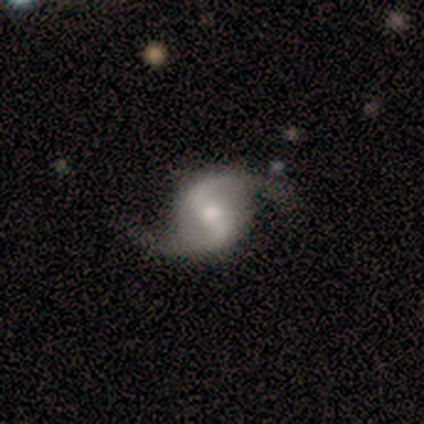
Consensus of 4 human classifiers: smooth-or-featured: featured or disk: 100% | smooth: 0% | star or artifact: 0%
  disk-edge-on: no: 100% | yes: 0%
    bar: weak: 50% | strong: 25% | no: 25%
    has-spiral-arms: yes: 100% | no: 0%
      spiral-winding: loose: 50% | tight: 25% | medium: 25%
      spiral-arm-count: 2: 100% | 1: 0% | 3: 0% | 4: 0% | more than 4: 0% | can't tell: 0%
    bulge-size: moderate: 75% | small: 25% | dominant: 0% | large: 0% | none: 0%
  merging: none: 100% | minor disturbance: 0% | major disturbance: 0% | merger: 0%